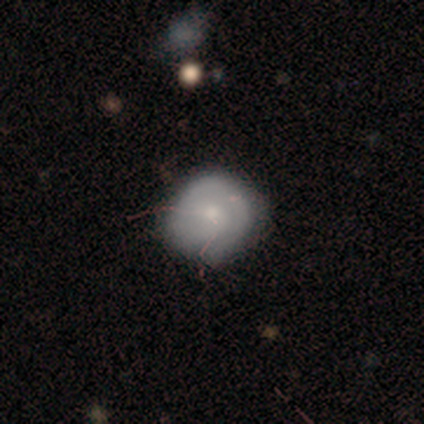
smooth-or-featured: smooth: 67% | featured or disk: 19% | star or artifact: 14%
  how-rounded: round: 79% | in between: 21% | cigar-shaped: 0%
  merging: none: 58% | minor disturbance: 32% | major disturbance: 10% | merger: 0%